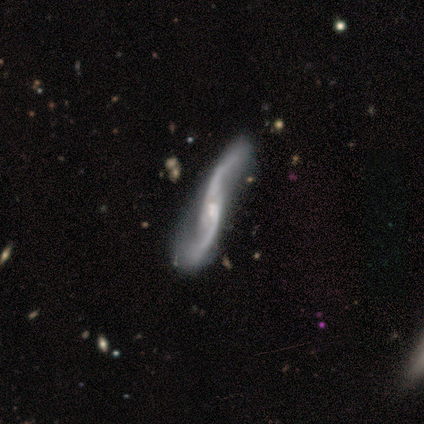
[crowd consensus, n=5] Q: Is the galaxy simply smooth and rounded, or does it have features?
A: featured or disk — 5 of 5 (100%).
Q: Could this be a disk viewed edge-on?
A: no — 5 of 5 (100%).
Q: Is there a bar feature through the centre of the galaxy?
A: no — 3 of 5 (60%).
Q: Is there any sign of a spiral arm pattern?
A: yes — 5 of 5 (100%).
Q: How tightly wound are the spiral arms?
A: loose — 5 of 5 (100%).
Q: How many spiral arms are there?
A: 2 — 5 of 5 (100%).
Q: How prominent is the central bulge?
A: moderate — 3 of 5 (60%).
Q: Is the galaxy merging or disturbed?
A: none — 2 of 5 (40%, tied with merger).